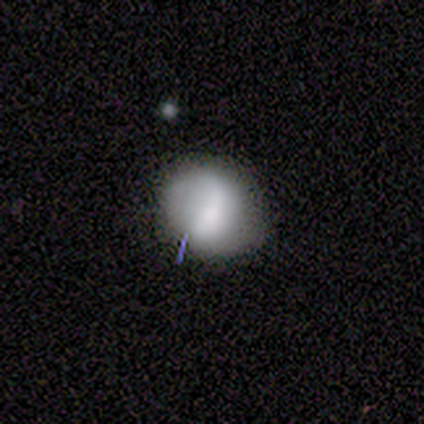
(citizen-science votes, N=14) Q: Smooth or featured?
A: smooth (71%); runner-up: featured or disk (29%)
Q: How rounded?
A: round (80%); runner-up: in between (20%)
Q: Merging?
A: none (71%); runner-up: minor disturbance (21%)